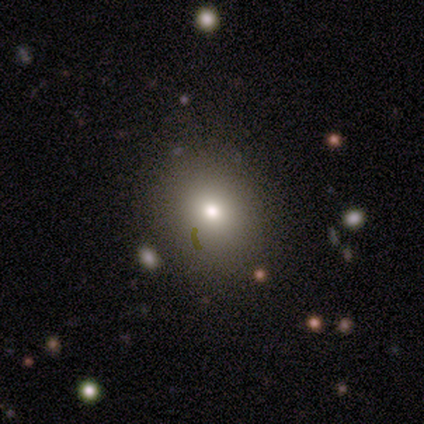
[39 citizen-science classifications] smooth-or-featured: smooth: 72% | star or artifact: 15% | featured or disk: 13%
  how-rounded: round: 75% | in between: 25% | cigar-shaped: 0%
  merging: none: 85% | minor disturbance: 9% | major disturbance: 3% | merger: 3%